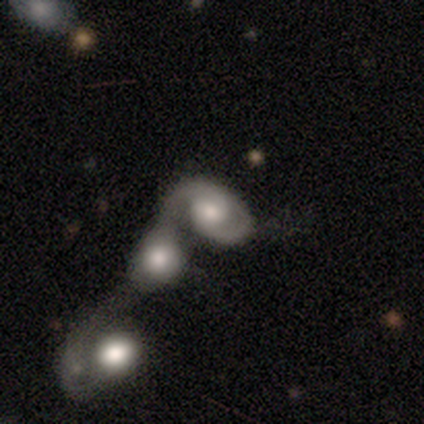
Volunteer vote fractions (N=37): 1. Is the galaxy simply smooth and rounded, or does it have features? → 68% featured or disk, 27% smooth, 5% star or artifact.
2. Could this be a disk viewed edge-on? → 100% no, 0% yes.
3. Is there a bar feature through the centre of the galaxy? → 76% no, 24% weak, 0% strong.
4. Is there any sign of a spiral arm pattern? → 92% yes, 8% no.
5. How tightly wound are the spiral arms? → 52% medium, 43% tight, 4% loose.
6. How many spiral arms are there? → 61% 2, 26% 1, 4% 3, 4% 4, 4% can't tell, 0% more than 4.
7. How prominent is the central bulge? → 40% moderate, 28% small, 24% large, 4% dominant, 4% none.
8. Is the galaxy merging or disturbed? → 86% merger, 11% major disturbance, 3% none, 0% minor disturbance.